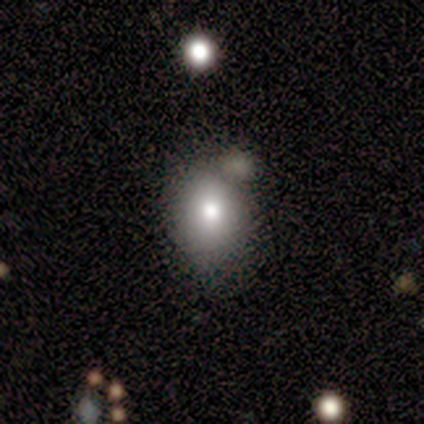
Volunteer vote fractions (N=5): Smooth or featured: smooth — 80% (featured or disk — 20%)
How rounded: round — 50% (tied with in between — 50%)
Merging: none — 40% (tied with minor disturbance — 40%)